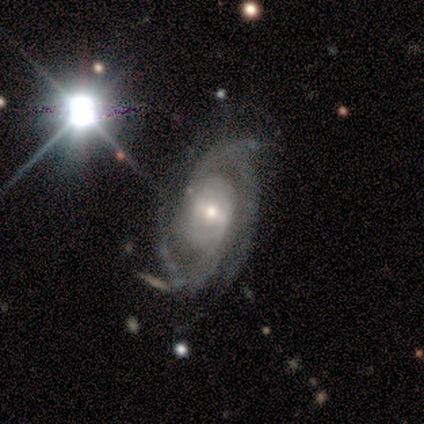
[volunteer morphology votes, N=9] This appears to be a featured or disk galaxy (100%) with no bar (67%), 2 (50%) tight (62%) spiral arms (89%) and a moderate central bulge (56%). Merging: none (78%).